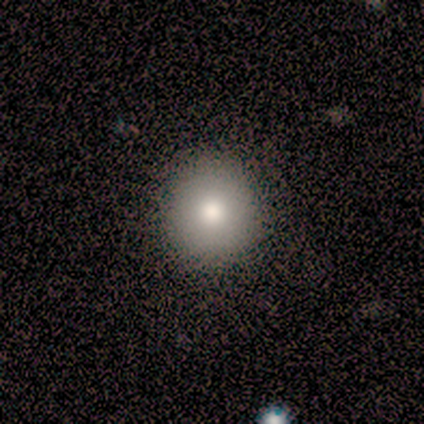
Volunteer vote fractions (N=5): A smooth galaxy with no disk features (60%) that is round (67%).

Vote fractions:
- Smooth or featured? smooth: 60% / star or artifact: 40% / featured or disk: 0%
- How rounded? round: 67% / in between: 33% / cigar-shaped: 0%
- Merging? none: 67% / minor disturbance: 33% / major disturbance: 0% / merger: 0%